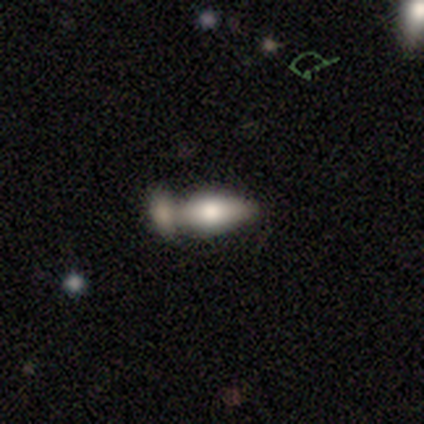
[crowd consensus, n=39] smooth-or-featured: smooth: 82% | featured or disk: 15% | star or artifact: 3%
  how-rounded: in between: 84% | cigar-shaped: 12% | round: 3%
  merging: merger: 63% | none: 24% | minor disturbance: 8% | major disturbance: 5%